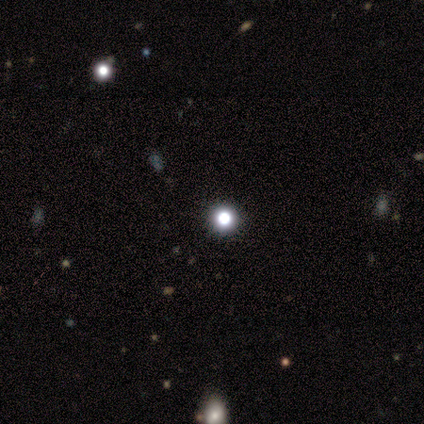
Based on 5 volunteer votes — Morphology: type=smooth (100%); roundness=round (100%); merging=none (100%).